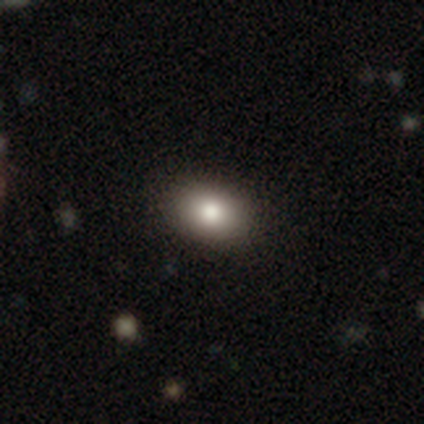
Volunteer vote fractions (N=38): Overall: smooth (89%). How rounded: in between (79%). Merging: none (81%).